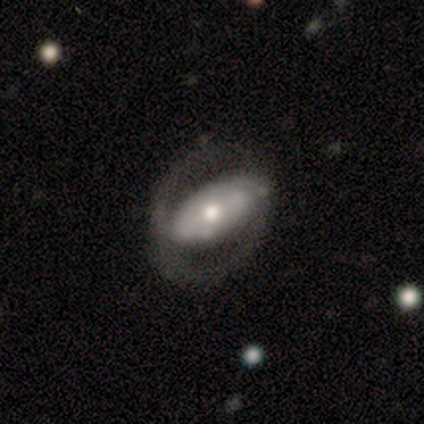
A smooth galaxy with no disk features (60%) that is in between round and cigar-shaped (100%).

Vote fractions:
- Smooth or featured? smooth: 60% / featured or disk: 40% / star or artifact: 0%
- How rounded? in between: 100% / round: 0% / cigar-shaped: 0%
- Merging? none: 80% / major disturbance: 20% / minor disturbance: 0% / merger: 0%